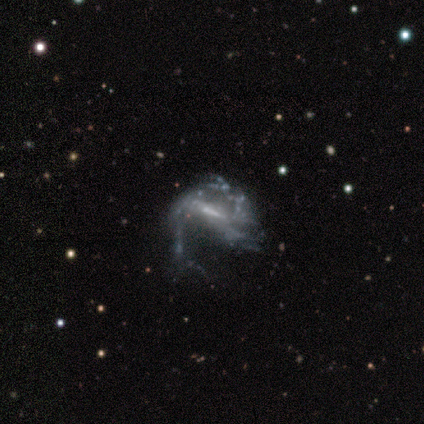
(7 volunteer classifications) This appears to be a featured or disk galaxy (71%) with a weak bar (40%, tied with no), 2 (75%) loose (100%) spiral arms (80%) and a small central bulge (60%). Merging: major disturbance (83%).